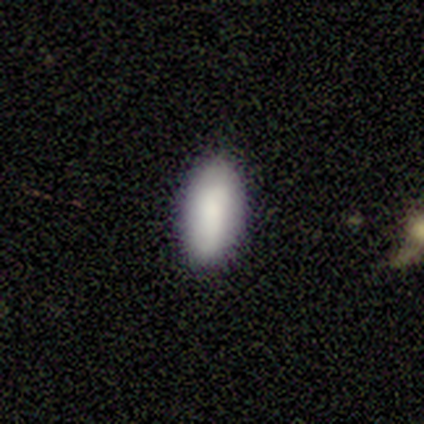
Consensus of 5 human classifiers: Q: Smooth or featured?
A: smooth (100%)
Q: How rounded?
A: in between (100%)
Q: Merging?
A: none (100%)